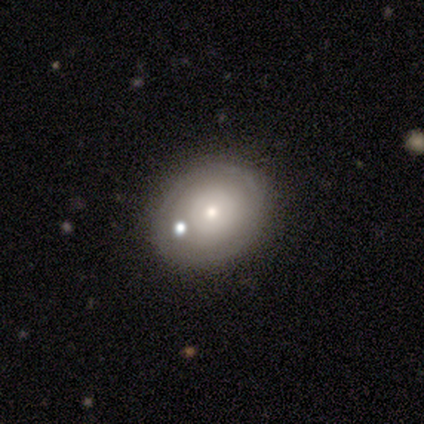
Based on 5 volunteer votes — smooth_or_featured: featured or disk (p=0.60) [alt: smooth p=0.40]
disk_edge_on: no (p=1.00)
bar: no (p=1.00)
has_spiral_arms: no (p=0.67) [alt: yes p=0.33]
bulge_size: moderate (p=0.67) [alt: small p=0.33]
merging: none (p=1.00)